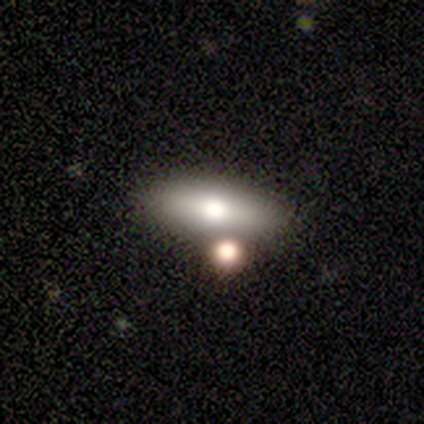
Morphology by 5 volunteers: smooth 60%, featured or disk 20%, star or artifact 20%. Down the decision tree: how rounded — in between (67%); merging — minor disturbance (50%).